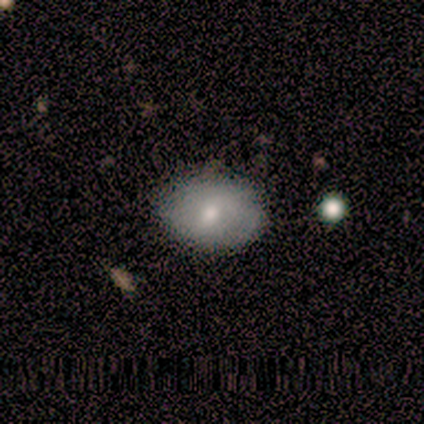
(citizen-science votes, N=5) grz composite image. It shows a smooth galaxy with no disk features (80%) that is round (50%). Merging: none (40%, tied with minor disturbance).